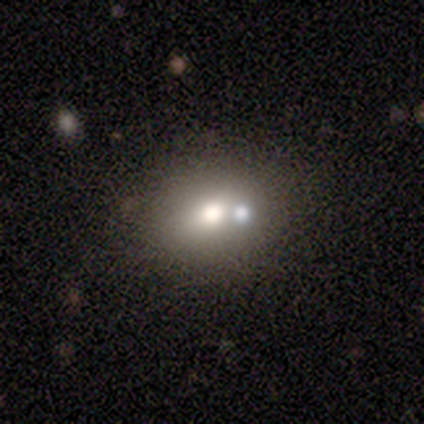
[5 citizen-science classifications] Smooth or featured: smooth — 40% (tied with featured or disk — 40%)
How rounded: in between — 100%
Merging: none — 100%